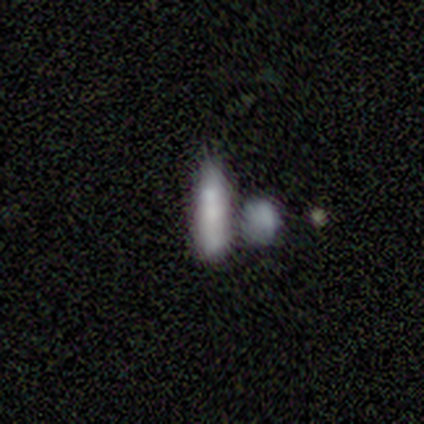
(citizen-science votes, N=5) A smooth galaxy with no disk features (60%) that is cigar-shaped (67%). Merging: minor disturbance (67%).